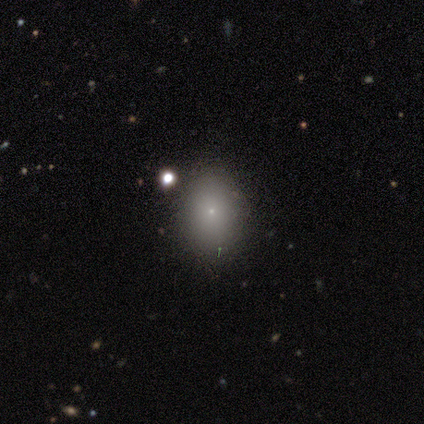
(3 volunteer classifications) Smooth or featured? smooth (100%)
How rounded? in between (67%)
Merging? none (67%)